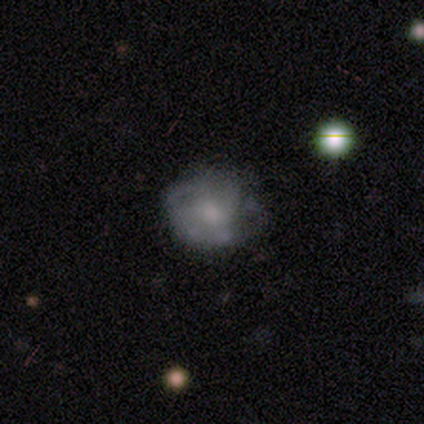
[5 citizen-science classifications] Q: Smooth or featured?
A: featured or disk (60%); runner-up: smooth (40%)
Q: Edge-on disk?
A: no (100%)
Q: Bar?
A: no (67%); runner-up: weak (33%)
Q: Spiral arms?
A: no (67%); runner-up: yes (33%)
Q: Bulge size?
A: large (33%); tied with: moderate (33%); none (33%)
Q: Merging?
A: minor disturbance (60%); runner-up: none (40%)